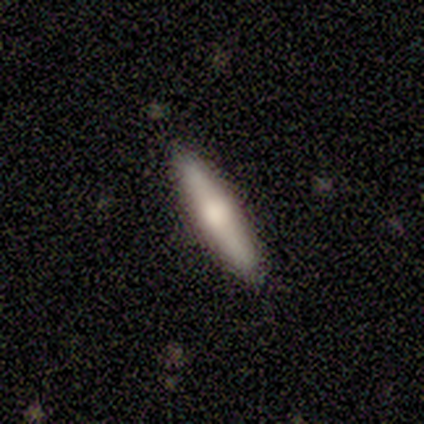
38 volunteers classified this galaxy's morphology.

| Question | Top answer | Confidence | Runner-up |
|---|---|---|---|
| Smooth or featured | smooth | 66% | featured or disk (32%) |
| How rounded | cigar-shaped | 76% | in between (24%) |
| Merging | none | 92% | minor disturbance (8%) |